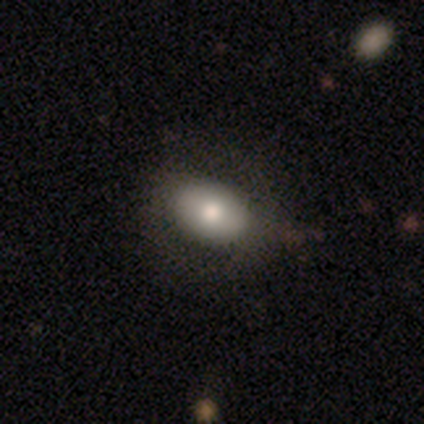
This is likely a smooth galaxy (70%). How rounded: likely in between (79%). Merging: likely none (80%).